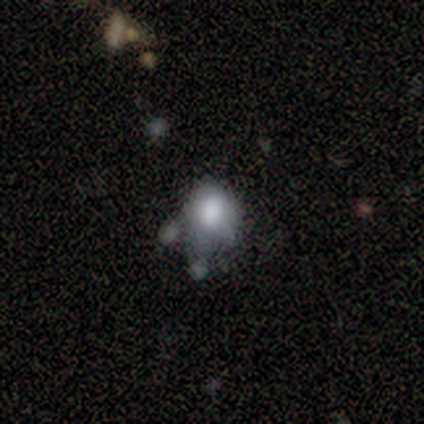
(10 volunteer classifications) Morphology: type=smooth (80%); roundness=round (75%); merging=minor disturbance (50%).